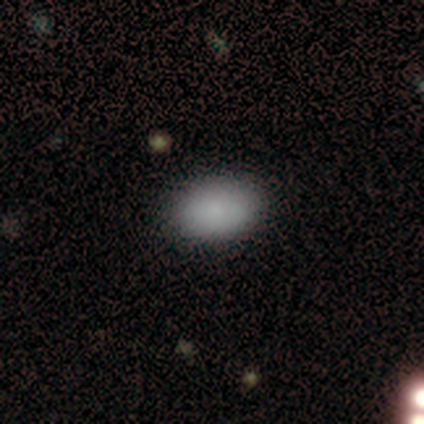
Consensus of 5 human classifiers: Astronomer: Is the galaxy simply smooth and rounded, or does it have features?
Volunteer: smooth — 100%.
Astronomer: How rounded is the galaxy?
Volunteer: in between — 100%.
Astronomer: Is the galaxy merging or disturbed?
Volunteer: none — 100%.